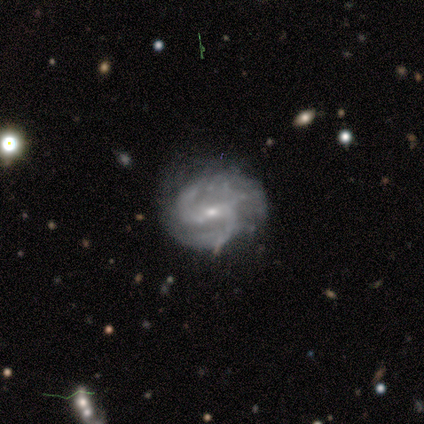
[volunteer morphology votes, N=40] smooth_or_featured: featured or disk (p=0.95) [alt: smooth p=0.03]
disk_edge_on: no (p=1.00)
bar: weak (p=0.66) [alt: no p=0.24]
has_spiral_arms: yes (p=0.97) [alt: no p=0.03]
spiral_winding: medium (p=0.68) [alt: tight p=0.19]
spiral_arm_count: 2 (p=0.78) [alt: 3 p=0.19]
bulge_size: small (p=0.76) [alt: moderate p=0.24]
merging: none (p=0.56) [alt: minor disturbance p=0.36]